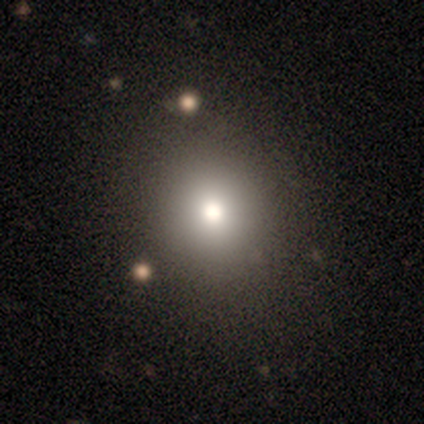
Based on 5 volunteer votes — Smooth or featured? smooth (60%)
How rounded? round (67%)
Merging? none (100%)